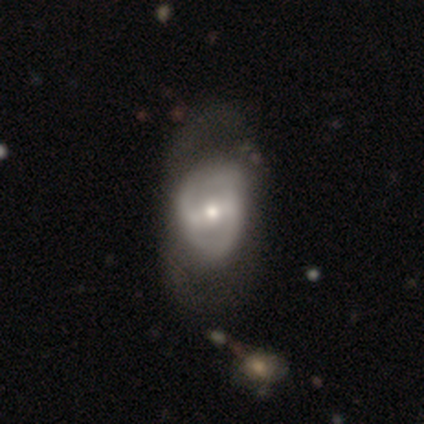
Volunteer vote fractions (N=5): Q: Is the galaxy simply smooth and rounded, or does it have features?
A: featured or disk — 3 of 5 (60%).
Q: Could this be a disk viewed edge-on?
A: no — 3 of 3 (100%).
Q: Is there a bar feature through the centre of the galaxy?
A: strong — 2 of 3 (67%).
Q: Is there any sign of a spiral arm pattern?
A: yes — 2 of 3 (67%).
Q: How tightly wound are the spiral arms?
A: tight — 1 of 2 (50%, tied with loose).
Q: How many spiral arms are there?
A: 2 — 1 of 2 (50%, tied with can't tell).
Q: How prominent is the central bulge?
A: moderate — 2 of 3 (67%).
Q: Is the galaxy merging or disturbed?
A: major disturbance — 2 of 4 (50%).